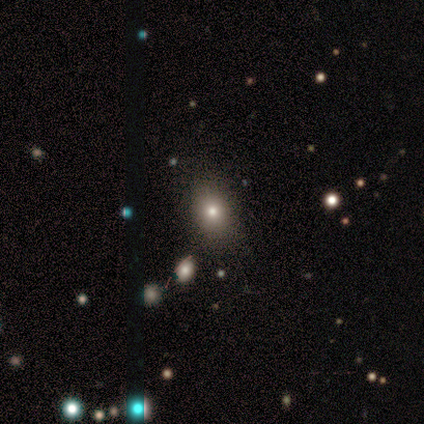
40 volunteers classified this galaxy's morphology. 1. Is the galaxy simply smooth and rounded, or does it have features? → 60% smooth, 28% star or artifact, 12% featured or disk.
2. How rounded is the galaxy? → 50% in between, 46% round, 4% cigar-shaped.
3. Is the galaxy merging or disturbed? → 83% none, 14% minor disturbance, 3% major disturbance, 0% merger.